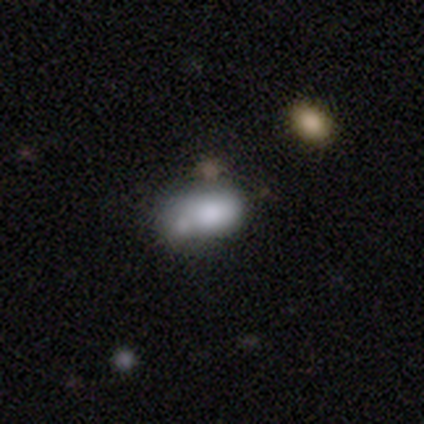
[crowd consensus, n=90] Smooth or featured: smooth — 78% (featured or disk — 11%)
How rounded: in between — 94% (round — 6%)
Merging: merger — 38% (minor disturbance — 28%)